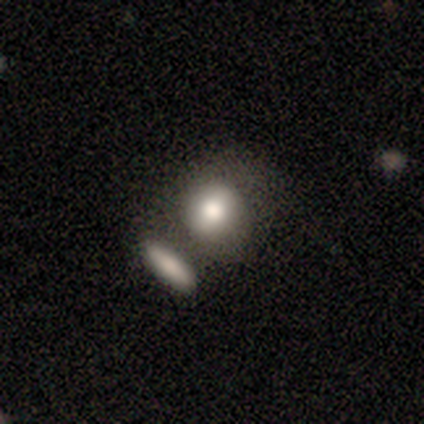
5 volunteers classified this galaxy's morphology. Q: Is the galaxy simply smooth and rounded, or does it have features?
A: smooth — 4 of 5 (80%).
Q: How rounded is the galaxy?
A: round — 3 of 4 (75%).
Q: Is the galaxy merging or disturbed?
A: none — 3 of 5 (60%).